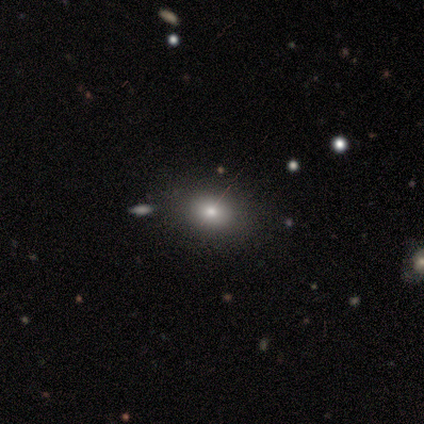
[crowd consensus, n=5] Smooth or featured? 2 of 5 (40%, tied with featured or disk) said smooth. How rounded? 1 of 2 (50%, tied with in between) said round. Merging? 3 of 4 (75%) said none.